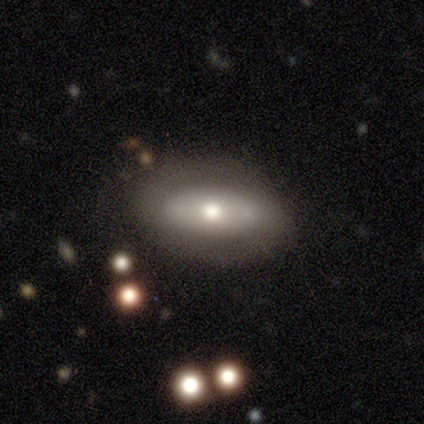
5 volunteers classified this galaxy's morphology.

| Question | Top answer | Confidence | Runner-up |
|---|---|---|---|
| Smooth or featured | smooth | 40% | tied: featured or disk (40%) |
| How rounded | in between | 100% | — |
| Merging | none | 100% | — |